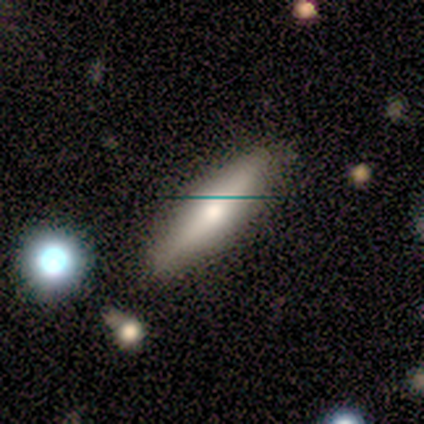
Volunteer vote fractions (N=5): A smooth galaxy with no disk features (100%) that is cigar-shaped (60%). Merging: none (80%).